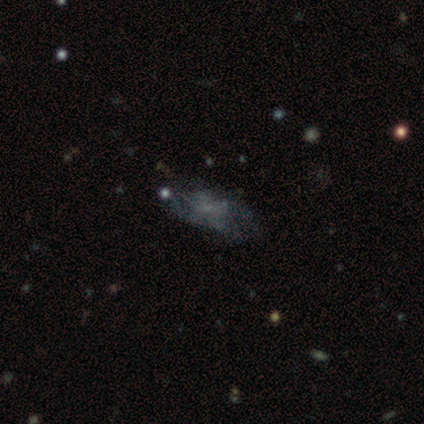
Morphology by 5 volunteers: A featured or disk galaxy (40%, tied with star or artifact) with a weak bar (50%, tied with no), loose (100%) spiral arms (50%, tied with no) and a small central bulge (50%, tied with none). Merging: none (67%).